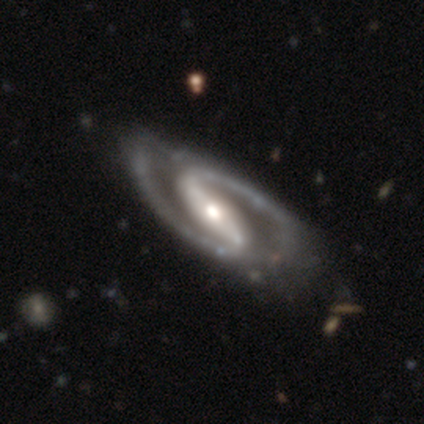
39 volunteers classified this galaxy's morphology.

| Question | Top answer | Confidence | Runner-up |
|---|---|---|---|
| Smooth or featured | featured or disk | 95% | smooth (3%) |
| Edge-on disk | no | 97% | yes (3%) |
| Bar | strong | 92% | weak (6%) |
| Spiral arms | yes | 97% | no (3%) |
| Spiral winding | medium | 60% | tight (29%) |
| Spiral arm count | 2 | 100% | — |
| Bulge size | moderate | 67% | small (17%) |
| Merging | none | 39% | minor disturbance (24%) |